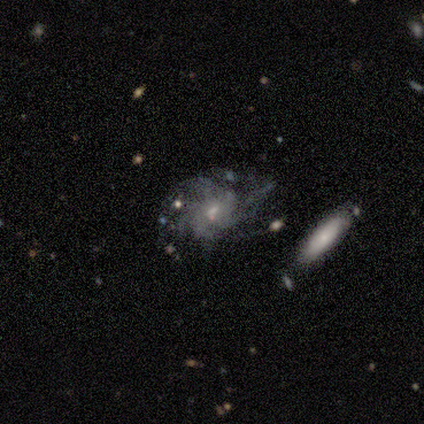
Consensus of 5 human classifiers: Volunteers were most divided on "bar": no: 67%, weak: 33%, strong: 0%. More confident: spiral arms — yes (100%); bulge size — small (100%); smooth or featured — featured or disk (80%); edge-on disk — no (75%); spiral winding — tight (67%); spiral arm count — more than 4 (67%); merging — none (60%).